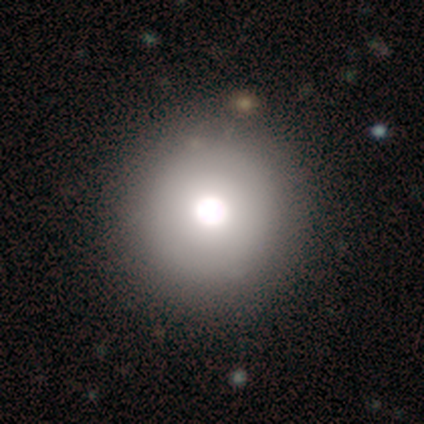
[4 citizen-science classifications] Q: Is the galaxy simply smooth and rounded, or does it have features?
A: featured or disk — 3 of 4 (75%).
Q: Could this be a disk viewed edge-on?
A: no — 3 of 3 (100%).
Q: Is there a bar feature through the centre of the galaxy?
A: no — 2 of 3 (67%).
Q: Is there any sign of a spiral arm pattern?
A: no — 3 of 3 (100%).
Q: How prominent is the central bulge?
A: large — 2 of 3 (67%).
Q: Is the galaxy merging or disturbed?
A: none — 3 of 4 (75%).